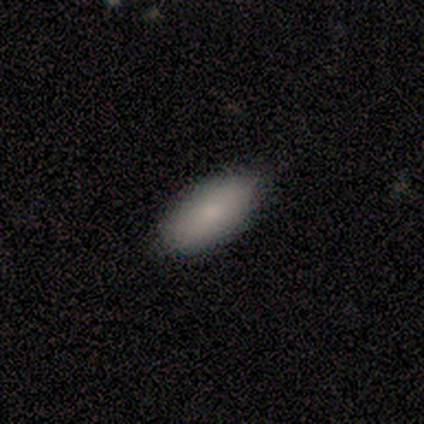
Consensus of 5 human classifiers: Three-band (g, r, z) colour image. It shows a smooth galaxy with no disk features (80%) that is in between round and cigar-shaped (100%). Merging: none (75%).